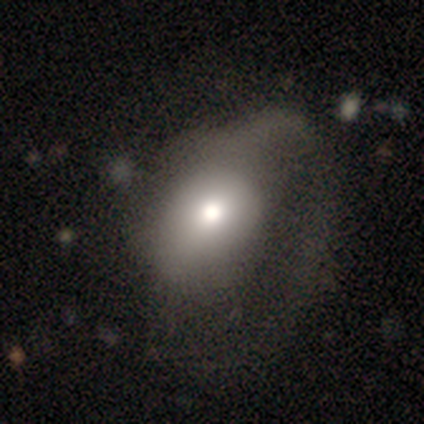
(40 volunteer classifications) Smooth or featured?
  - smooth: 57% *
  - featured or disk: 38%
  - star or artifact: 5%
How rounded?
  - in between: 61% *
  - round: 39%
  - cigar-shaped: 0%
Merging?
  - major disturbance: 58% *
  - none: 16%
  - minor disturbance: 8%
  - merger: 5%